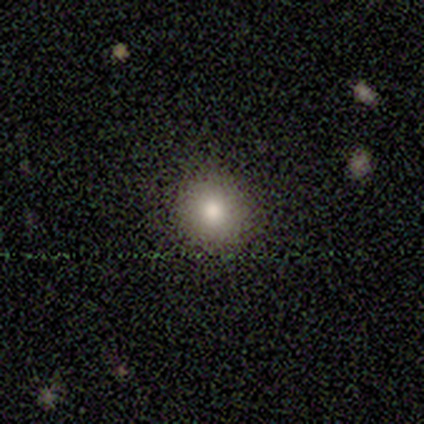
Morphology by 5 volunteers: Overall: smooth (80%). How rounded: in between (75%). Merging: none (100%).